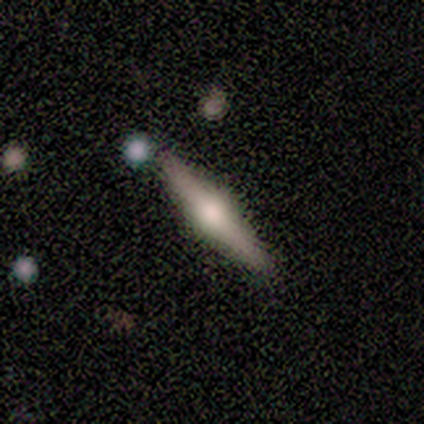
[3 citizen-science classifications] Q: Smooth or featured?
A: featured or disk (100%)
Q: Edge-on disk?
A: yes (100%)
Q: Edge-on bulge?
A: rounded (100%)
Q: Merging?
A: none (100%)